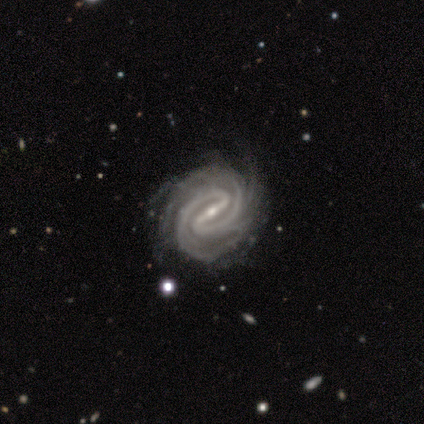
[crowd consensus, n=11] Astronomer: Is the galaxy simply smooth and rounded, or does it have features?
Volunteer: featured or disk — 100%.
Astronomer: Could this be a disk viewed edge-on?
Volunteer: no — 91%.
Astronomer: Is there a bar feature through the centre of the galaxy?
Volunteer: strong — 90%.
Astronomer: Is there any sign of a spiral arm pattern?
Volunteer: yes — 100%.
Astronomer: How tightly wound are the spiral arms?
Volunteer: tight — 90%.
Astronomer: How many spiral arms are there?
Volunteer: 2 — 50% (runner-up: more than 4, 30%).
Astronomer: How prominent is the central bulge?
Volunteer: small — 90%.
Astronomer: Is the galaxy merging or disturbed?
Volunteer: none — 64%.